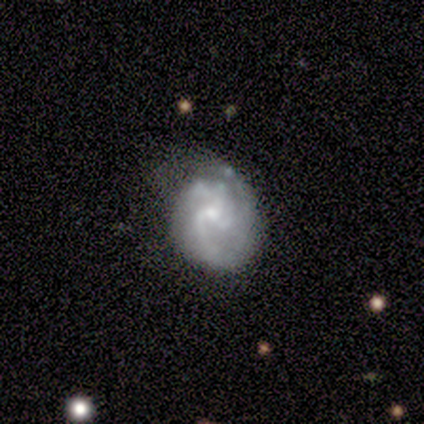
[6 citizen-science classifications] smooth-or-featured: featured or disk: 100% | smooth: 0% | star or artifact: 0%
  disk-edge-on: no: 100% | yes: 0%
    bar: no: 100% | strong: 0% | weak: 0%
    has-spiral-arms: yes: 100% | no: 0%
      spiral-winding: medium: 50% | tight: 33% | loose: 17%
      spiral-arm-count: 3: 50% | 2: 17% | 4: 17% | can't tell: 17% | 1: 0% | more than 4: 0%
    bulge-size: small: 67% | moderate: 33% | dominant: 0% | large: 0% | none: 0%
  merging: none: 83% | minor disturbance: 17% | major disturbance: 0% | merger: 0%